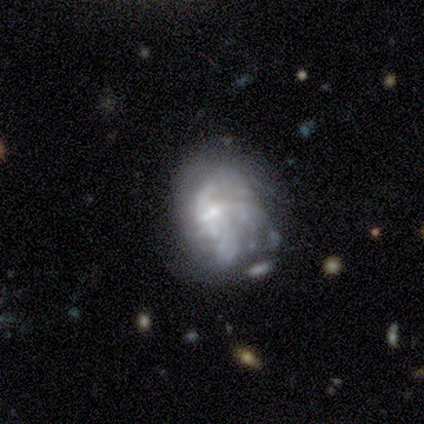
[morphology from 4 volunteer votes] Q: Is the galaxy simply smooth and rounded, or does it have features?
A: featured or disk — 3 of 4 (75%).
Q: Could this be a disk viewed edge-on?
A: no — 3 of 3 (100%).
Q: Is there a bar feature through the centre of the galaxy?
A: no — 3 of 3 (100%).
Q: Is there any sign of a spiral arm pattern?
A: yes — 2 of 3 (67%).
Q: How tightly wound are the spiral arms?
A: tight — 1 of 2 (50%, tied with loose).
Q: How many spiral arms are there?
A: can't tell — 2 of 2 (100%).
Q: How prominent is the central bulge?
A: small — 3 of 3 (100%).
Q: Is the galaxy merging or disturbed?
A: minor disturbance — 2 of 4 (50%).